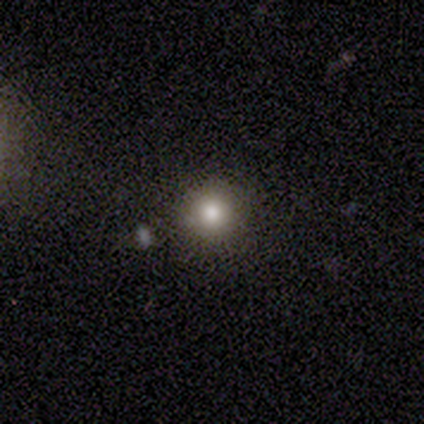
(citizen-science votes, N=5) smooth_or_featured: smooth (p=1.00)
how_rounded: round (p=1.00)
merging: none (p=1.00)